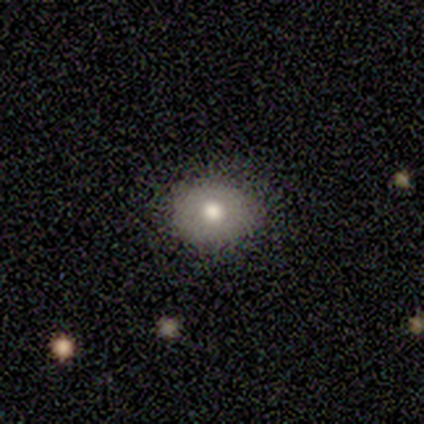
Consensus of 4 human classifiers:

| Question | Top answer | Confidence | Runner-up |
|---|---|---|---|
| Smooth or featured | smooth | 100% | — |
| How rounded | round | 75% | in between (25%) |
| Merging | none | 100% | — |